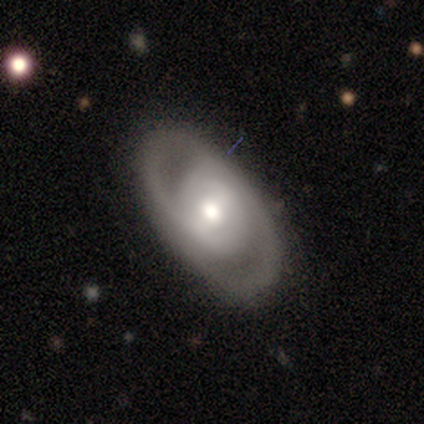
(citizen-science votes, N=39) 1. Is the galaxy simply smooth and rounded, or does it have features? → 82% featured or disk, 13% smooth, 5% star or artifact.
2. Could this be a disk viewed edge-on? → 91% no, 9% yes.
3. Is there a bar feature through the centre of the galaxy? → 52% no, 24% strong, 24% weak.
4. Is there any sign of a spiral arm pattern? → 90% yes, 10% no.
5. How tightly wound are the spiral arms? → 69% tight, 31% medium, 0% loose.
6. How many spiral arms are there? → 92% 2, 4% 3, 4% can't tell, 0% 1, 0% 4, 0% more than 4.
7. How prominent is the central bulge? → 72% moderate, 14% small, 10% large, 3% dominant, 0% none.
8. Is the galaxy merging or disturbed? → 97% none, 3% minor disturbance, 0% major disturbance, 0% merger.